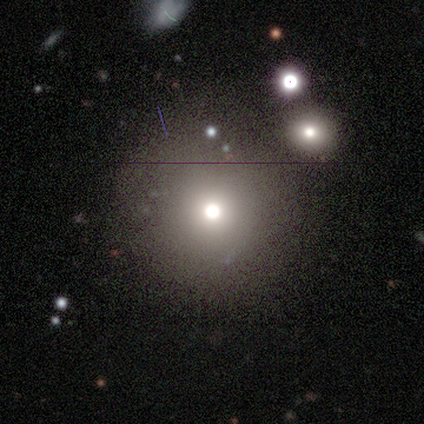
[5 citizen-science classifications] Smooth or featured? star or artifact (60%)